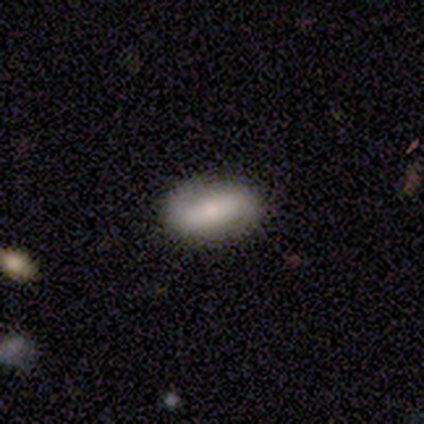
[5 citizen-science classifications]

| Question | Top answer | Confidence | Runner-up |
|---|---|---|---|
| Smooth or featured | smooth | 60% | featured or disk (40%) |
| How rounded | in between | 100% | — |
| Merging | none | 100% | — |